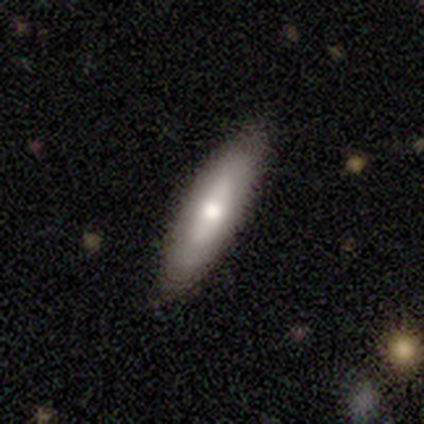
Volunteers were most divided on "spiral arms" (2-way tie): yes: 50%, no: 50%; "spiral winding" (2-way tie): medium: 50%, loose: 50%, tight: 0%. More confident: smooth or featured — featured or disk (100%); spiral arm count — can't tell (100%); merging — none (100%); edge-on disk — no (80%); bar — no (75%); bulge size — moderate (75%).